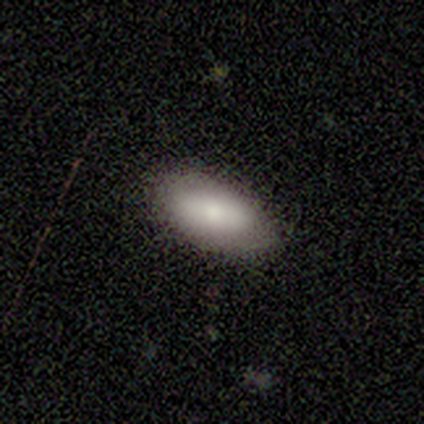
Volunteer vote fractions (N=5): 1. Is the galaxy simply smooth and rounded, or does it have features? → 80% smooth, 20% featured or disk, 0% star or artifact.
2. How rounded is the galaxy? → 75% in between, 25% cigar-shaped, 0% round.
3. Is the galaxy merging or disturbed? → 80% none, 20% minor disturbance, 0% major disturbance, 0% merger.